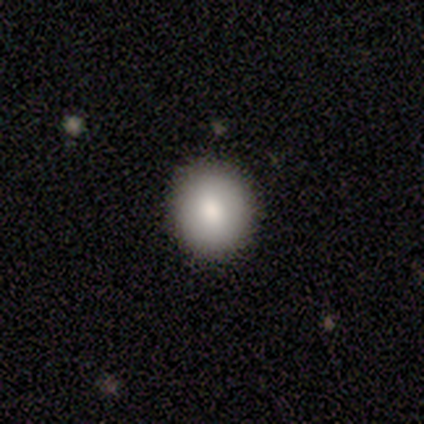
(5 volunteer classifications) Overall: smooth (100%). How rounded: round (100%). Merging: none (100%).